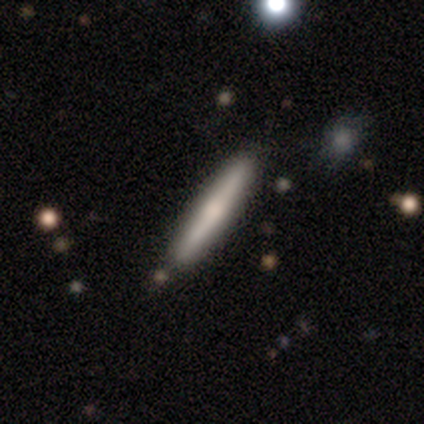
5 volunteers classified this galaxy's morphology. A smooth galaxy with no disk features (60%) that is cigar-shaped (100%). Merging: none (100%).